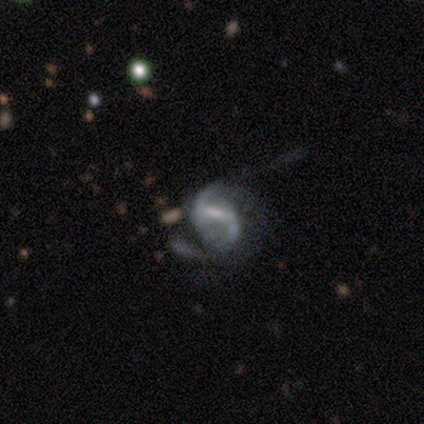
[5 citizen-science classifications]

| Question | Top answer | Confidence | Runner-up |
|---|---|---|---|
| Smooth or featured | featured or disk | 100% | — |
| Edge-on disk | no | 100% | — |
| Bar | weak | 60% | strong (20%) |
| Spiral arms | yes | 80% | no (20%) |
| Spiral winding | medium | 50% | tight (25%) |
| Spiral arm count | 2 | 100% | — |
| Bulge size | small | 60% | none (40%) |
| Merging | minor disturbance | 60% | major disturbance (40%) |